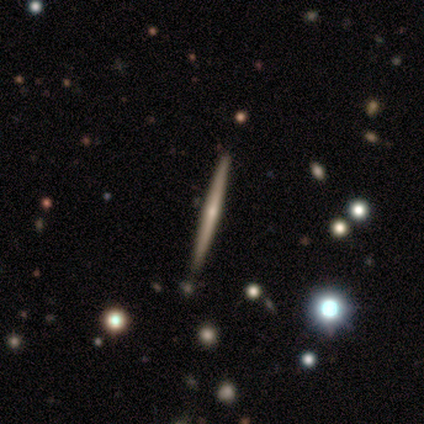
A featured or disk galaxy (71%) viewed edge-on (100%) with no central bulge (80%).

Vote fractions:
- Smooth or featured? featured or disk: 71% / smooth: 14% / star or artifact: 14%
- Edge-on disk? yes: 100% / no: 0%
- Edge-on bulge? none: 80% / rounded: 20% / boxy: 0%
- Merging? none: 100% / minor disturbance: 0% / major disturbance: 0% / merger: 0%